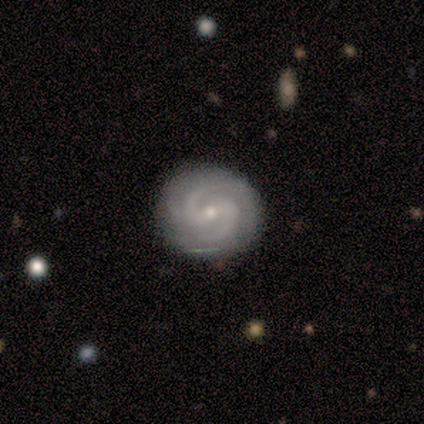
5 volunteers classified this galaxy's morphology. smooth_or_featured: featured or disk (p=1.00)
disk_edge_on: no (p=1.00)
bar: weak (p=0.40) [tied with: no p=0.40]
has_spiral_arms: yes (p=1.00)
spiral_winding: medium (p=0.60) [alt: tight p=0.40]
spiral_arm_count: 2 (p=0.80) [alt: 4 p=0.20]
bulge_size: small (p=0.80) [alt: moderate p=0.20]
merging: none (p=0.80) [alt: minor disturbance p=0.20]